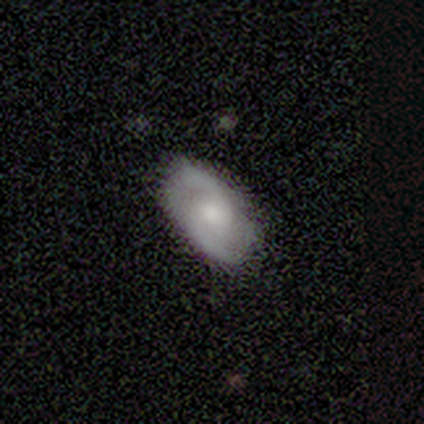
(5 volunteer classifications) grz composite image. It shows a featured or disk galaxy (60%) with a weak bar (50%, tied with no), 2 (100%) loose (100%) spiral arms (100%) and a small central bulge (100%). Merging: none (75%).